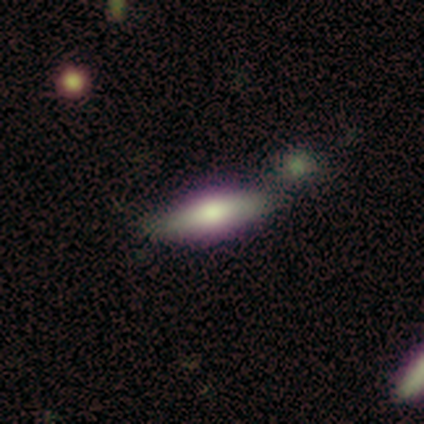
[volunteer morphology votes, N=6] Smooth or featured?
  - featured or disk: 67% *
  - smooth: 33%
  - star or artifact: 0%
Edge-on disk?
  - yes: 75% *
  - no: 25%
Edge-on bulge?
  - rounded: 67% *
  - boxy: 33%
  - none: 0%
Merging?
  - none: 50% *
  - minor disturbance: 17%
  - major disturbance: 17%
  - merger: 17%